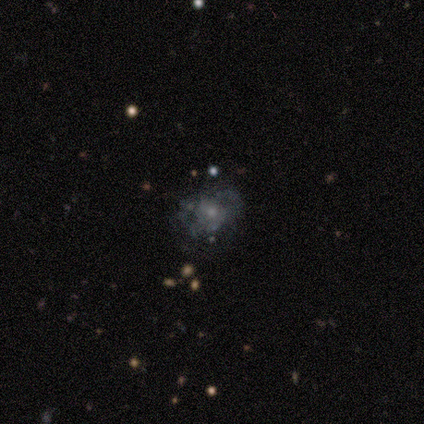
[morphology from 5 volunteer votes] Smooth or featured?
  - featured or disk: 60% *
  - smooth: 20%
  - star or artifact: 20%
Edge-on disk?
  - no: 100% *
  - yes: 0%
Bar?
  - no: 100% *
  - strong: 0%
  - weak: 0%
Spiral arms?
  - no: 100% *
  - yes: 0%
Bulge size?
  - large: 33% * (tied)
  - moderate: 33% * (tied)
  - none: 33% * (tied)
  - dominant: 0%
  - small: 0%
Merging?
  - none: 50% * (tied)
  - minor disturbance: 50% * (tied)
  - major disturbance: 0%
  - merger: 0%